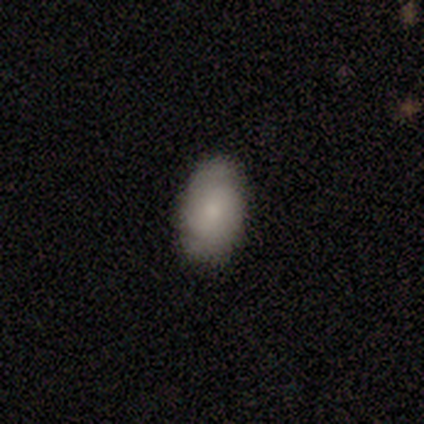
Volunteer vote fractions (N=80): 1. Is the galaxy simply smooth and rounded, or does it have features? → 59% smooth, 40% featured or disk, 1% star or artifact.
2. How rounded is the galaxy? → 96% in between, 2% round, 2% cigar-shaped.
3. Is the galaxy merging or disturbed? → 43% none, 8% minor disturbance, 0% major disturbance, 0% merger.